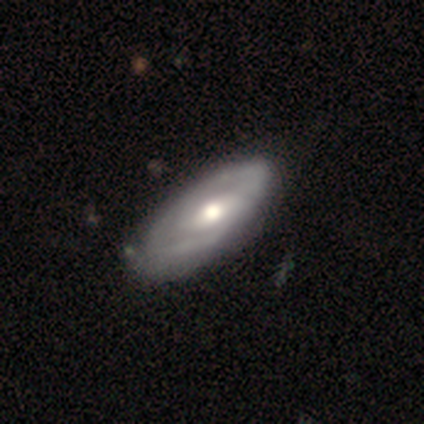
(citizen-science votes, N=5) Smooth or featured: featured or disk — 80% (smooth — 20%)
Edge-on disk: no — 100%
Bar: no — 75% (strong — 25%)
Spiral arms: yes — 100%
Spiral winding: tight — 75% (loose — 25%)
Spiral arm count: 2 — 100%
Bulge size: large — 50% (tied with moderate — 50%)
Merging: none — 100%